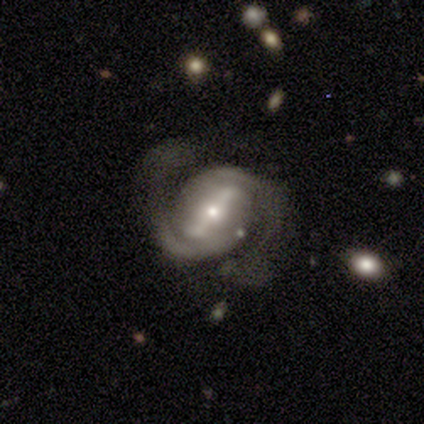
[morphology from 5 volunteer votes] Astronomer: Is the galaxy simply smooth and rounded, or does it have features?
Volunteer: featured or disk — 100%.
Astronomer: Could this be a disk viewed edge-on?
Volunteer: no — 100%.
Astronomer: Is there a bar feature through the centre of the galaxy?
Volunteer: strong — 100%.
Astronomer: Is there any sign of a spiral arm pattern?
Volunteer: yes — 100%.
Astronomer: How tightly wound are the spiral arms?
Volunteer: medium — 60%.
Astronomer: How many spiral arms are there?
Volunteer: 2 — 100%.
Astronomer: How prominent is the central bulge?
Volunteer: small — 100%.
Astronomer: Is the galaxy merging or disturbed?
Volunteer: none — 80%.